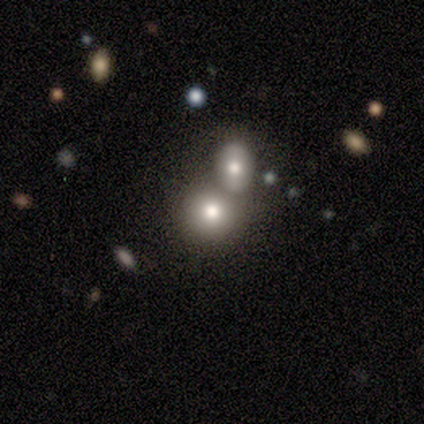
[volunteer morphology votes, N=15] This is clearly a smooth galaxy (93%). How rounded: likely round (79%). Merging: marginally none (43%, tied with merger).